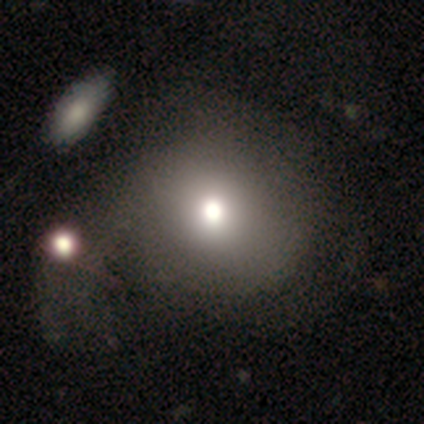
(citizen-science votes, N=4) Smooth or featured?
  - smooth: 100% *
  - featured or disk: 0%
  - star or artifact: 0%
How rounded?
  - round: 100% *
  - in between: 0%
  - cigar-shaped: 0%
Merging?
  - none: 75% *
  - major disturbance: 25%
  - minor disturbance: 0%
  - merger: 0%